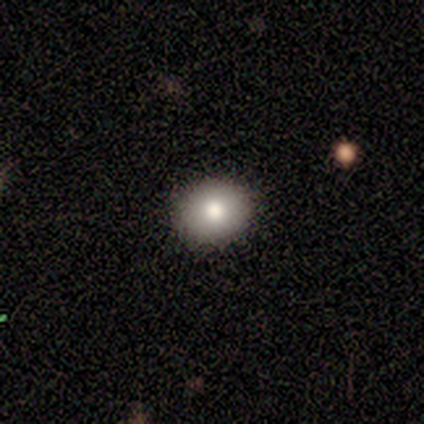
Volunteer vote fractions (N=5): Morphology: type=smooth (100%); roundness=round (100%); merging=none (100%).